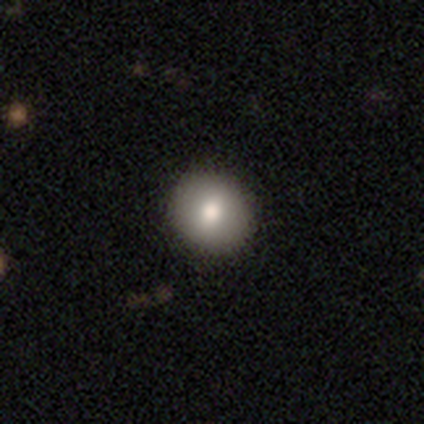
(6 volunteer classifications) This appears to be a smooth galaxy with no disk features (67%) that is round (100%). Merging: none (83%).